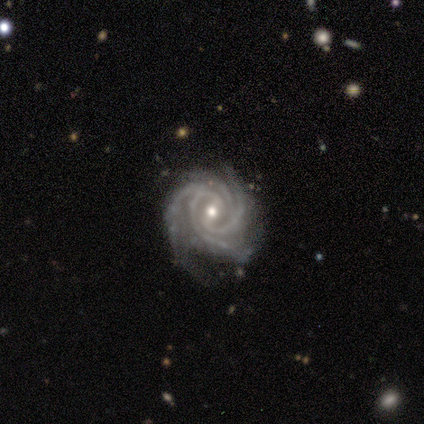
Overall: featured or disk (100%). Edge-on disk: no (100%). Bar: weak (75%). Spiral arms: yes (100%). Spiral arm count: 4 (50%; 3 25%). Spiral winding: tight (75%). Bulge size: small (50%; dominant 25%). Merging: none (50%; major disturbance 25%).